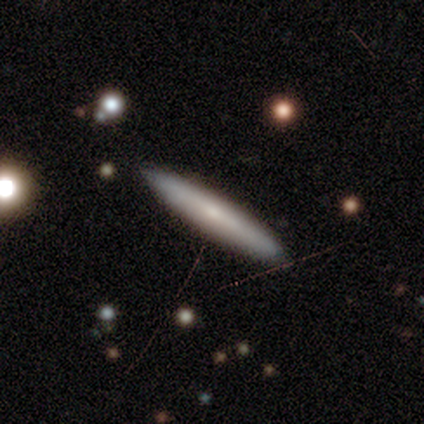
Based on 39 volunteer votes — smooth_or_featured: smooth (p=0.56) [alt: featured or disk p=0.41]
how_rounded: cigar-shaped (p=0.95) [alt: in between p=0.05]
merging: none (p=0.66) [alt: minor disturbance p=0.05]